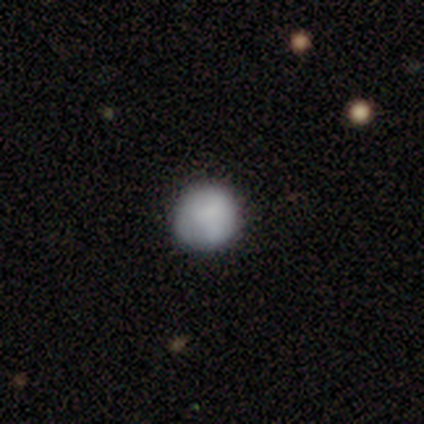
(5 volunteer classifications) Q: Smooth or featured?
A: smooth (80%); runner-up: featured or disk (20%)
Q: How rounded?
A: round (100%)
Q: Merging?
A: none (80%); runner-up: minor disturbance (20%)